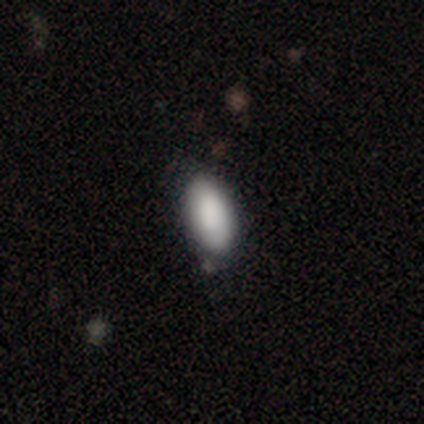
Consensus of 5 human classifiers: smooth_or_featured: smooth (p=1.00)
how_rounded: in between (p=0.80) [alt: cigar-shaped p=0.20]
merging: none (p=1.00)